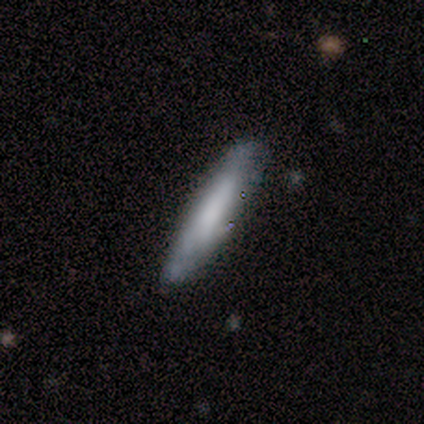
This appears to be a smooth galaxy with no disk features (67%) that is cigar-shaped (83%). Merging: none (67%).